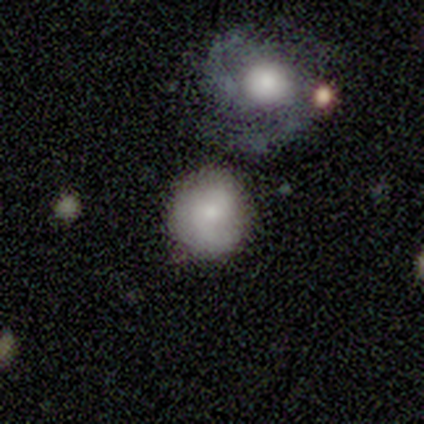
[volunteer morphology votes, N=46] Smooth or featured: smooth — 57% (featured or disk — 37%)
How rounded: round — 92% (in between — 8%)
Merging: none — 58% (merger — 21%)